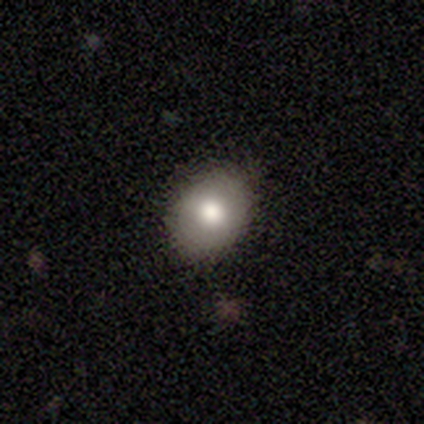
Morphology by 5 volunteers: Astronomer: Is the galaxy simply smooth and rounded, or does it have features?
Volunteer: smooth — 40%, tied with star or artifact at 40%.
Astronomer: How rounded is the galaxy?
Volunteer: round — 50%, tied with in between at 50%.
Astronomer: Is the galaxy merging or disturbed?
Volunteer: none — 100%.